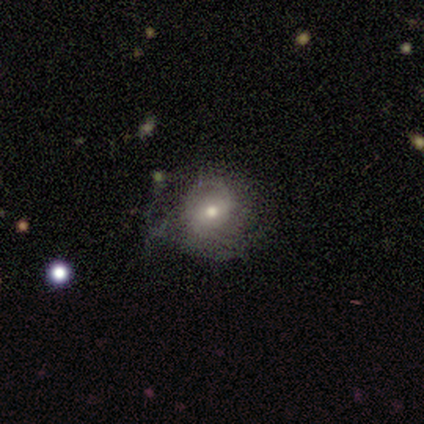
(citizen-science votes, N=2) Smooth or featured?
  - featured or disk: 50% * (tied)
  - star or artifact: 50% * (tied)
  - smooth: 0%
Edge-on disk?
  - no: 100% *
  - yes: 0%
Bar?
  - no: 100% *
  - strong: 0%
  - weak: 0%
Spiral arms?
  - no: 100% *
  - yes: 0%
Bulge size?
  - moderate: 100% *
  - dominant: 0%
  - large: 0%
  - small: 0%
  - none: 0%
Merging?
  - none: 100% *
  - minor disturbance: 0%
  - major disturbance: 0%
  - merger: 0%